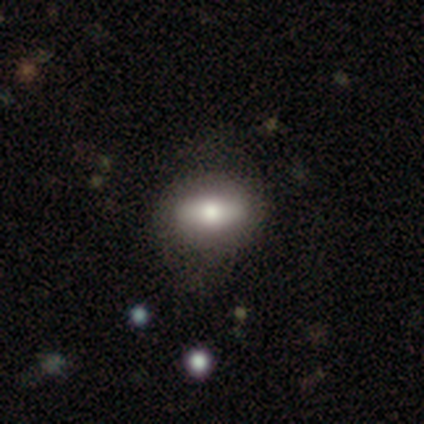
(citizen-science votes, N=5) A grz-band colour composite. It shows a smooth galaxy with no disk features (60%) that is in between round and cigar-shaped (67%). Merging: none (75%).